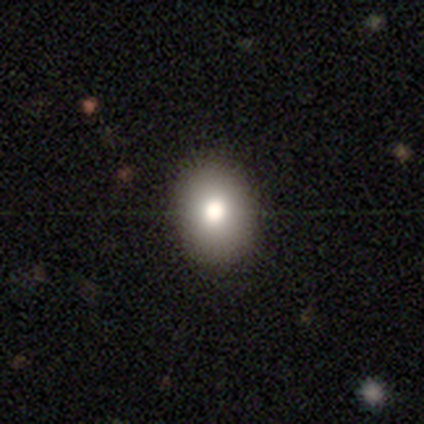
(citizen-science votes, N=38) Volunteers were most divided on "how rounded": in between: 56%, round: 44%, cigar-shaped: 0%. More confident: smooth or featured — smooth (71%); merging — none (65%).